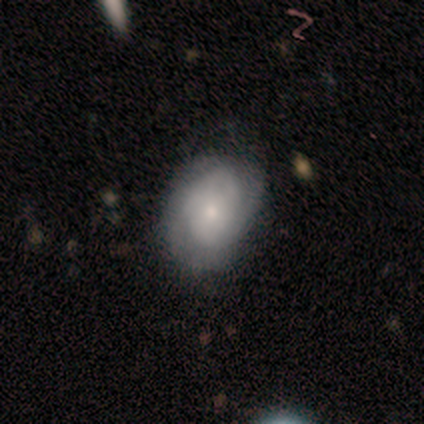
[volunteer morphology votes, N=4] Smooth or featured: smooth — 50% (tied with featured or disk — 50%)
How rounded: round — 50% (tied with in between — 50%)
Merging: none — 100%